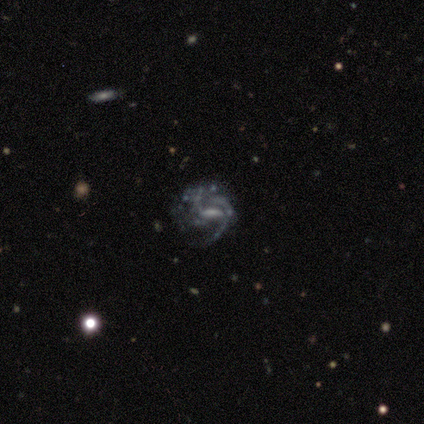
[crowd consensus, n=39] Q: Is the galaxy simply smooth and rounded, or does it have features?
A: featured or disk — 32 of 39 (82%).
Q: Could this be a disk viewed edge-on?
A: no — 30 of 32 (94%).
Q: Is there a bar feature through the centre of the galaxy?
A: weak — 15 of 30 (50%).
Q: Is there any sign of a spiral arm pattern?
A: yes — 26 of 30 (87%).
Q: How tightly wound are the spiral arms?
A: medium — 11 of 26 (42%).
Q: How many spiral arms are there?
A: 2 — 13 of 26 (50%).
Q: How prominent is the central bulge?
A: none — 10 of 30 (33%).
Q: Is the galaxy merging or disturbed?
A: none — 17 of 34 (50%).